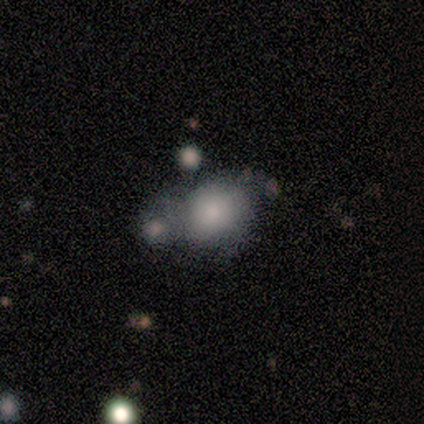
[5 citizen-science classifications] This is likely a smooth galaxy (60%). How rounded: likely round (67%). Merging: clearly merger (80%).